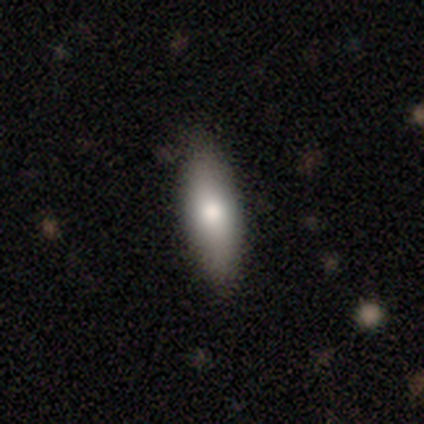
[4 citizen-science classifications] Smooth or featured?
  - smooth: 75% *
  - featured or disk: 25%
  - star or artifact: 0%
How rounded?
  - in between: 67% *
  - cigar-shaped: 33%
  - round: 0%
Merging?
  - none: 100% *
  - minor disturbance: 0%
  - major disturbance: 0%
  - merger: 0%